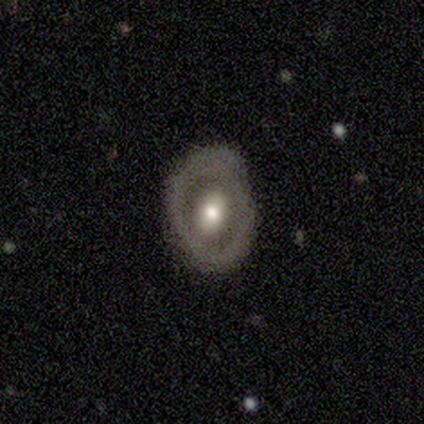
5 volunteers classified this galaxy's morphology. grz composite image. It shows a featured or disk galaxy (60%) with a strong bar (33%, tied with weak and no), no spiral arms (67%) and a moderate central bulge (67%). Merging: none (80%).